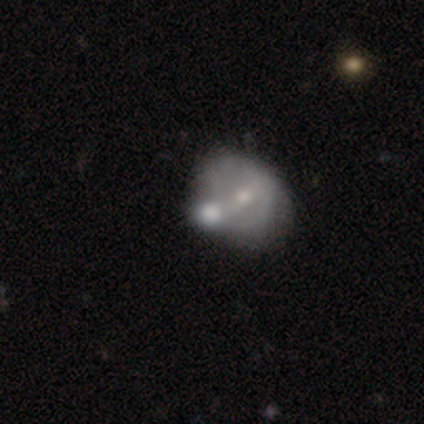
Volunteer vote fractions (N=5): This is clearly a smooth galaxy (80%). How rounded: likely round (75%). Merging: possibly none (50%, tied with merger).